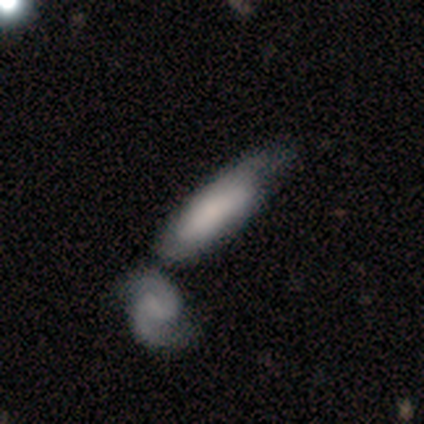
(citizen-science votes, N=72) Overall: smooth (56%; featured or disk 35%). How rounded: in between (62%; cigar-shaped 38%). Merging: merger (45%; minor disturbance 23%).